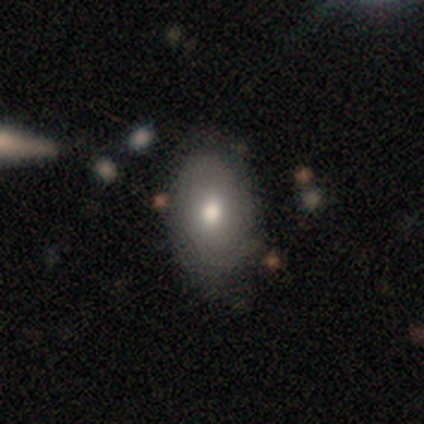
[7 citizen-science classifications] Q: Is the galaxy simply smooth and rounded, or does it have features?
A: smooth — 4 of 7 (57%).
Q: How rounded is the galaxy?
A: in between — 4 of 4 (100%).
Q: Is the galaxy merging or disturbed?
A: none — 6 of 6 (100%).